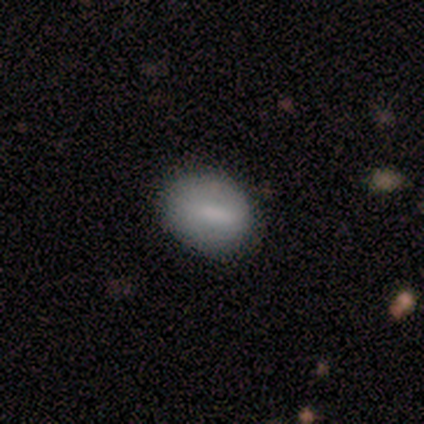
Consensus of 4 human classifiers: Morphology: type=smooth (75%); roundness=round (67%); merging=none (100%).